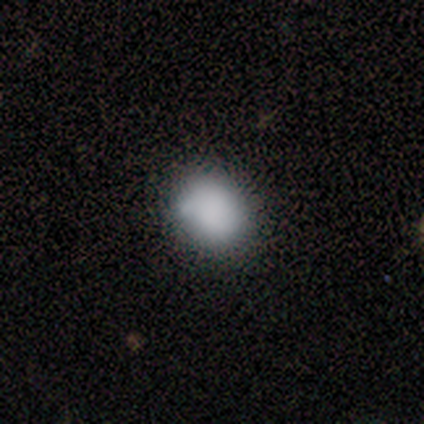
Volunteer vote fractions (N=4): A smooth galaxy with no disk features (100%) that is round (50%, tied with in between).

Vote fractions:
- Smooth or featured? smooth: 100% / featured or disk: 0% / star or artifact: 0%
- How rounded? round: 50% (tied) / in between: 50% (tied) / cigar-shaped: 0%
- Merging? none: 100% / minor disturbance: 0% / major disturbance: 0% / merger: 0%